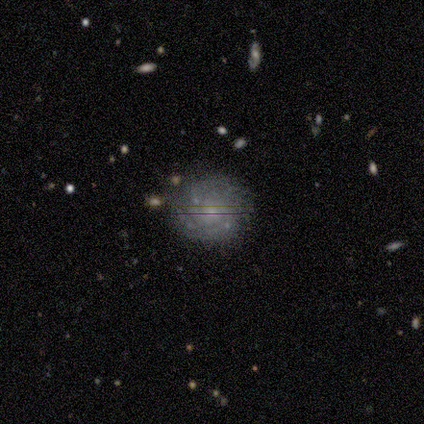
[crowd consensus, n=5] Smooth or featured: featured or disk — 100%
Edge-on disk: no — 100%
Bar: no — 80% (weak — 20%)
Spiral arms: yes — 80% (no — 20%)
Spiral winding: tight — 50% (tied with medium — 50%)
Spiral arm count: can't tell — 75% (3 — 25%)
Bulge size: small — 80% (moderate — 20%)
Merging: none — 80% (major disturbance — 20%)